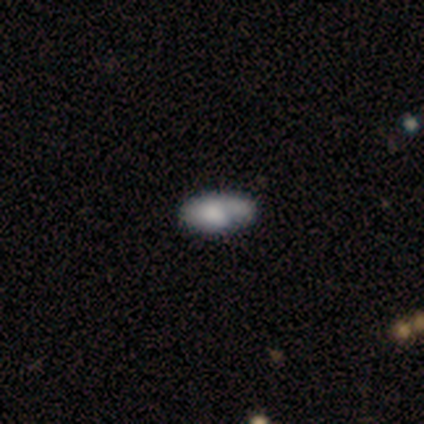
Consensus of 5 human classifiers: Smooth or featured? smooth (80%)
How rounded? in between (100%)
Merging? minor disturbance (40%)